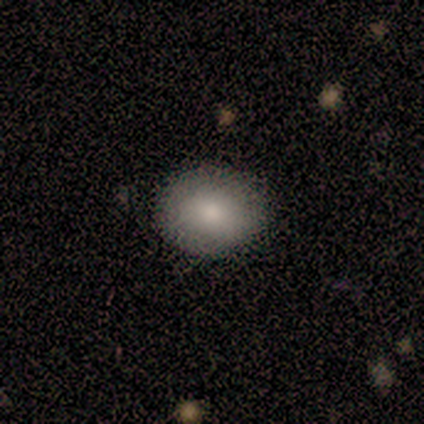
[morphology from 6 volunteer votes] type=smooth (83%); roundness=in between (80%); merging=none (67%).